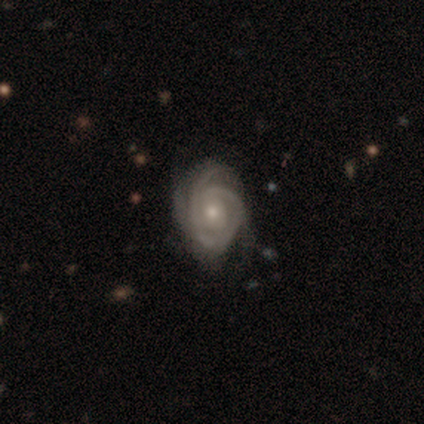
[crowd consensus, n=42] featured or disk 86%, star or artifact 10%, smooth 5%. Down the decision tree: edge-on disk — no (97%); bar — no (77%); spiral arms — yes (97%); spiral arm count — 3 (41%); spiral winding — tight (76%); bulge size — small (60%); merging — none (53%).